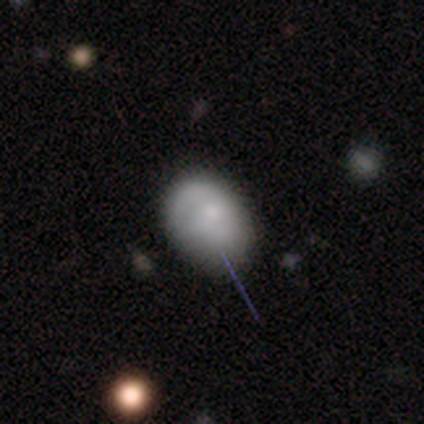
Overall: smooth (61%; featured or disk 37%). How rounded: in between (74%). Merging: none (46%; minor disturbance 16%).